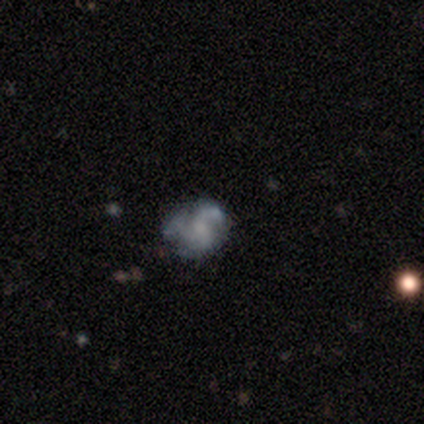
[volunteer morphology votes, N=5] Overall: smooth (60%; featured or disk 20%). How rounded: round (67%; in between 33%). Merging: none (100%).